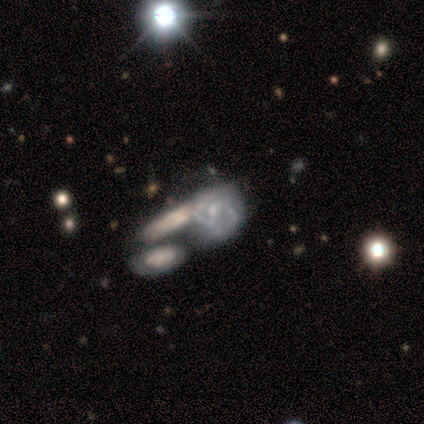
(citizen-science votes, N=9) Morphology: type=featured or disk (78%); edge-on=no (86%); bar=weak (50%, tied with no); spiral arms=yes (100%); winding=medium (50%); arm count=2 (67%); bulge=small (50%); merging=merger (62%).